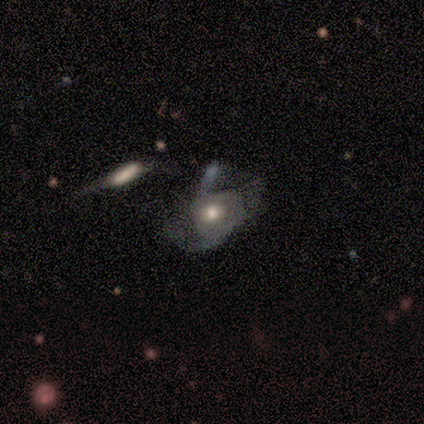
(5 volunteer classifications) Smooth or featured?
  - featured or disk: 80% *
  - star or artifact: 20%
  - smooth: 0%
Edge-on disk?
  - no: 100% *
  - yes: 0%
Bar?
  - no: 75% *
  - weak: 25%
  - strong: 0%
Spiral arms?
  - yes: 50% * (tied)
  - no: 50% * (tied)
Spiral winding?
  - tight: 50% * (tied)
  - medium: 50% * (tied)
  - loose: 0%
Spiral arm count?
  - 2: 100% *
  - 1: 0%
  - 3: 0%
  - 4: 0%
  - more than 4: 0%
  - can't tell: 0%
Bulge size?
  - moderate: 100% *
  - dominant: 0%
  - large: 0%
  - small: 0%
  - none: 0%
Merging?
  - none: 50% * (tied)
  - major disturbance: 50% * (tied)
  - minor disturbance: 0%
  - merger: 0%